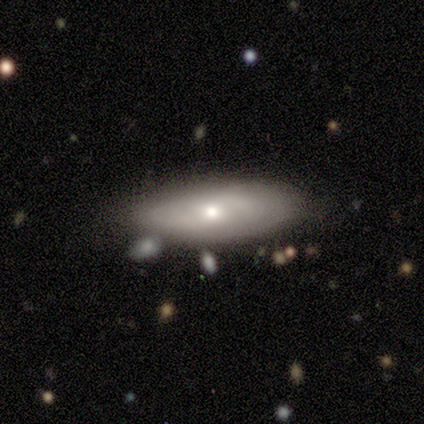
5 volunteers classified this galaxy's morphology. This appears to be a smooth galaxy with no disk features (60%) that is in between round and cigar-shaped (100%). Merging: none (60%).